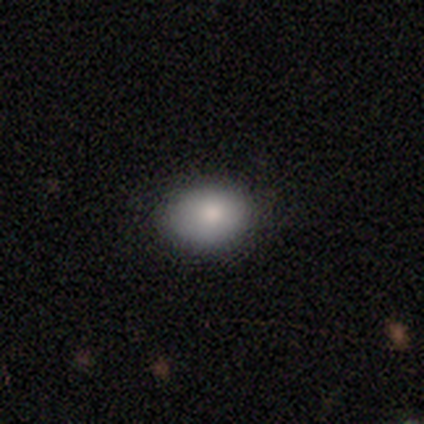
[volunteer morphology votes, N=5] This is clearly a smooth galaxy (80%). How rounded: likely in between (75%). Merging: clearly none (100%).